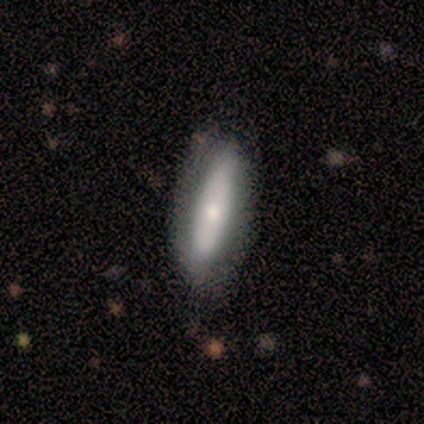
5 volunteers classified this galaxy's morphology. Smooth or featured: smooth — 60% (featured or disk — 40%)
How rounded: cigar-shaped — 100%
Merging: none — 80% (minor disturbance — 20%)